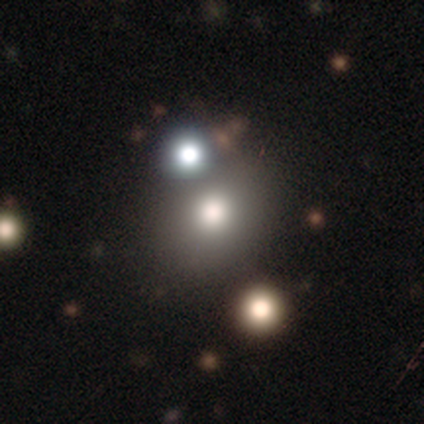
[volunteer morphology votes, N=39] A smooth galaxy with no disk features (67%) that is round (73%).

Vote fractions:
- Smooth or featured? smooth: 67% / star or artifact: 23% / featured or disk: 10%
- How rounded? round: 73% / in between: 27% / cigar-shaped: 0%
- Merging? none: 57% / merger: 27% / minor disturbance: 13% / major disturbance: 3%